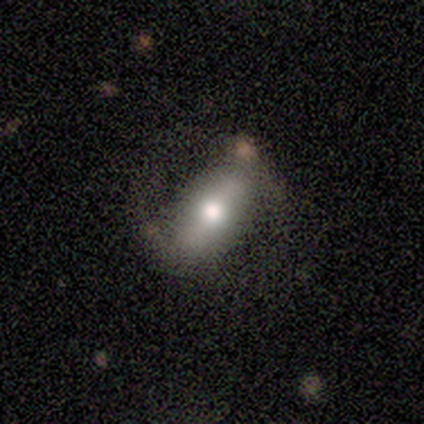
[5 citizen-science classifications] Smooth or featured? featured or disk (80%)
Edge-on disk? no (75%)
Bar? weak (67%)
Spiral arms? no (100%)
Bulge size? moderate (100%)
Merging? none (40%, tied with major disturbance)